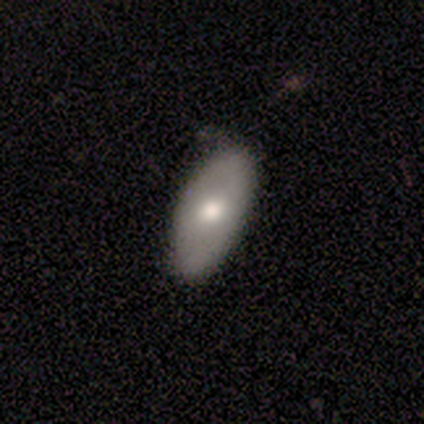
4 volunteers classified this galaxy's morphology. This appears to be a smooth galaxy with no disk features (50%, tied with featured or disk) that is in between round and cigar-shaped (100%). Merging: none (100%).